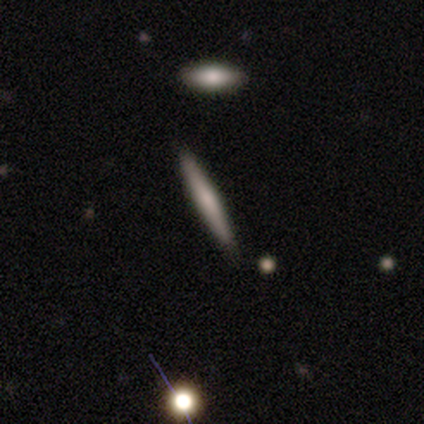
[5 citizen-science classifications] Morphology: type=smooth (40%, tied with featured or disk); roundness=cigar-shaped (100%); merging=none (100%).